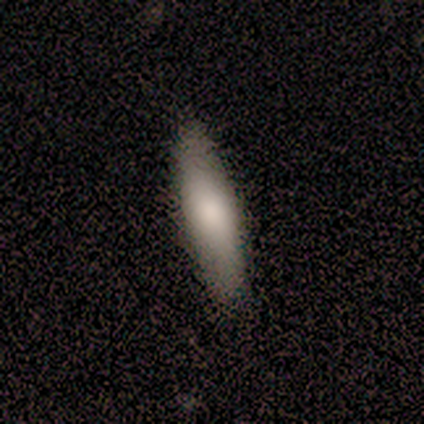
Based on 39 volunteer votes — Smooth or featured? smooth (74%)
How rounded? cigar-shaped (69%)
Merging? none (74%)